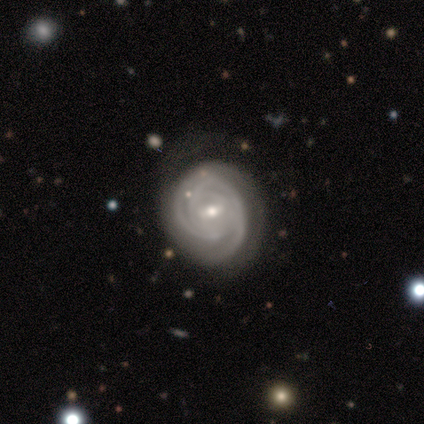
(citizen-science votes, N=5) Smooth or featured?
  - featured or disk: 80% *
  - star or artifact: 20%
  - smooth: 0%
Edge-on disk?
  - no: 100% *
  - yes: 0%
Bar?
  - no: 75% *
  - weak: 25%
  - strong: 0%
Spiral arms?
  - yes: 100% *
  - no: 0%
Spiral winding?
  - tight: 100% *
  - medium: 0%
  - loose: 0%
Spiral arm count?
  - can't tell: 75% *
  - 2: 25%
  - 1: 0%
  - 3: 0%
  - 4: 0%
  - more than 4: 0%
Bulge size?
  - small: 100% *
  - dominant: 0%
  - large: 0%
  - moderate: 0%
  - none: 0%
Merging?
  - none: 50% * (tied)
  - minor disturbance: 50% * (tied)
  - major disturbance: 0%
  - merger: 0%